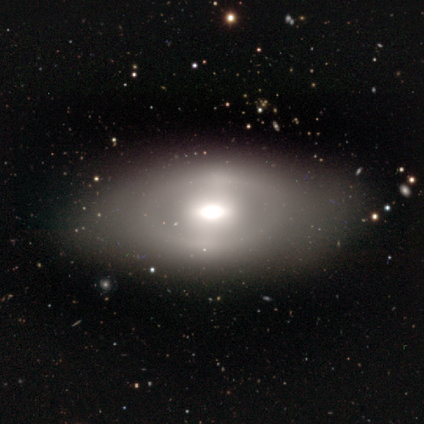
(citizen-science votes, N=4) Morphology: type=featured or disk (75%); edge-on=no (100%); bar=no (67%); spiral arms=no (100%); bulge=moderate (67%); merging=none (100%).